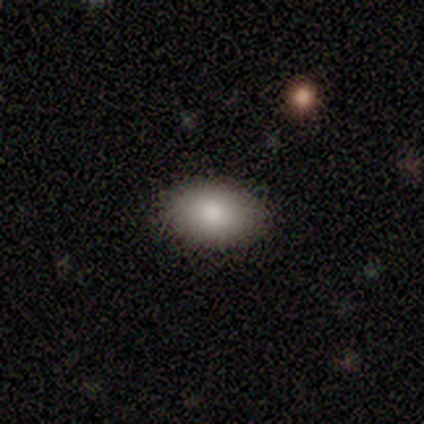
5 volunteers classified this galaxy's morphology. A smooth galaxy with no disk features (100%) that is in between round and cigar-shaped (60%).

Vote fractions:
- Smooth or featured? smooth: 100% / featured or disk: 0% / star or artifact: 0%
- How rounded? in between: 60% / round: 40% / cigar-shaped: 0%
- Merging? none: 100% / minor disturbance: 0% / major disturbance: 0% / merger: 0%